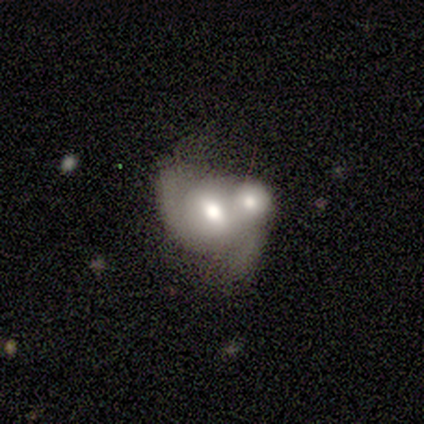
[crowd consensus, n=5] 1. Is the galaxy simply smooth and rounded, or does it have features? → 80% featured or disk, 20% smooth, 0% star or artifact.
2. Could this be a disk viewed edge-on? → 100% no, 0% yes.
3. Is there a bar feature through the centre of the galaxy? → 50% no, 25% strong, 25% weak.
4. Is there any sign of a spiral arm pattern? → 100% yes, 0% no.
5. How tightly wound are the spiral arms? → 50% medium (tied), 50% loose (tied), 0% tight.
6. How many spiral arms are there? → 100% 2, 0% 1, 0% 3, 0% 4, 0% more than 4, 0% can't tell.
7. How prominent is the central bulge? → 75% moderate, 25% large, 0% dominant, 0% small, 0% none.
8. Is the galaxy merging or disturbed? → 60% merger, 20% none, 20% minor disturbance, 0% major disturbance.